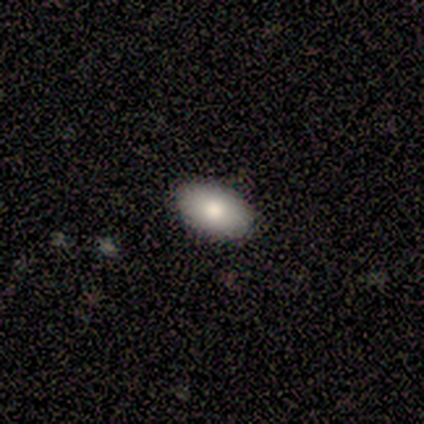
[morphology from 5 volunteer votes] This is clearly a smooth galaxy (80%). How rounded: possibly round (50%, tied with in between). Merging: clearly none (100%).